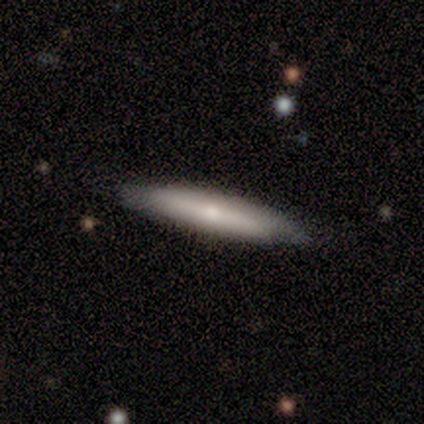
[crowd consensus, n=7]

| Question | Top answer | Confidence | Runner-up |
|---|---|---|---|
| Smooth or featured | featured or disk | 86% | smooth (14%) |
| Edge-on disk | yes | 100% | — |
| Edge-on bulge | rounded | 67% | none (33%) |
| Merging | none | 86% | minor disturbance (14%) |